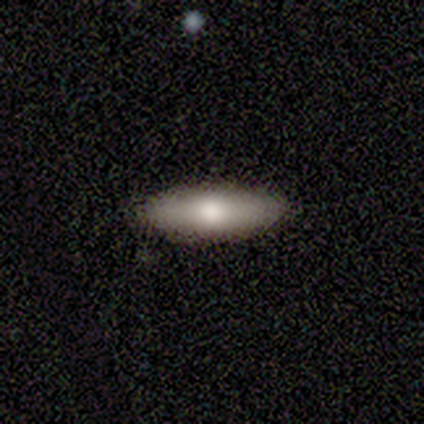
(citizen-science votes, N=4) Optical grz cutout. It shows a featured or disk galaxy (75%) with no bar (100%), no spiral arms (100%) and a moderate central bulge (50%, tied with small). Merging: none (100%).